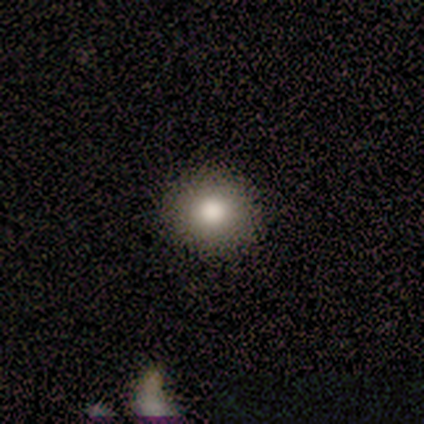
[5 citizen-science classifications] A smooth galaxy with no disk features (100%) that is round (100%). Merging: none (100%).